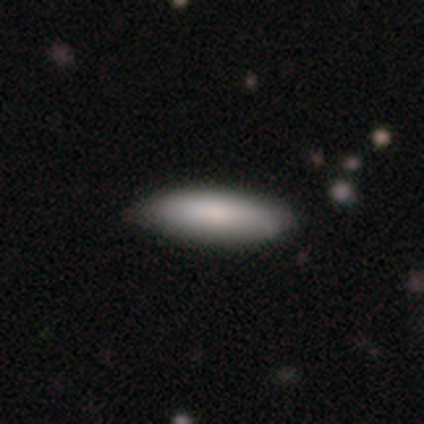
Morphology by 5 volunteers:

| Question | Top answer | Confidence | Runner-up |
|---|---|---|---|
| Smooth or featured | smooth | 100% | — |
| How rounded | in between | 80% | cigar-shaped (20%) |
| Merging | none | 80% | minor disturbance (20%) |